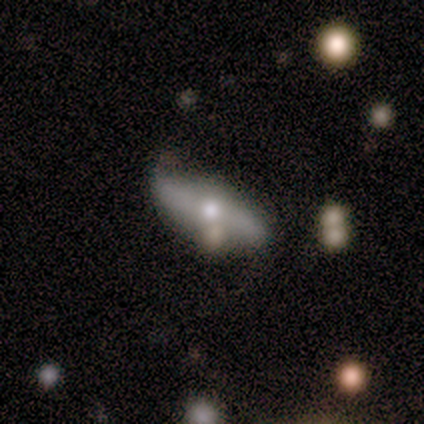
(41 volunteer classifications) Volunteers were most divided on "edge-on disk": no: 52%, yes: 48%. Remaining: spiral arm count — 2 (100%); spiral winding — loose (78%); bulge size — moderate (73%); smooth or featured — featured or disk (71%); bar — no (67%); spiral arms — yes (60%); merging — none (49%).